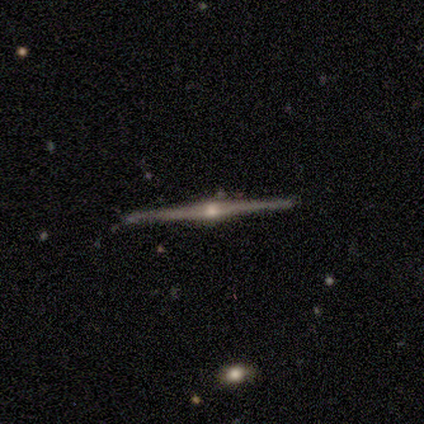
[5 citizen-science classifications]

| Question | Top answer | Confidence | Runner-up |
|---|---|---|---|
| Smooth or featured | featured or disk | 80% | star or artifact (20%) |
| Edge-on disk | yes | 75% | no (25%) |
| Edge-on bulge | rounded | 67% | none (33%) |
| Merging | none | 100% | — |